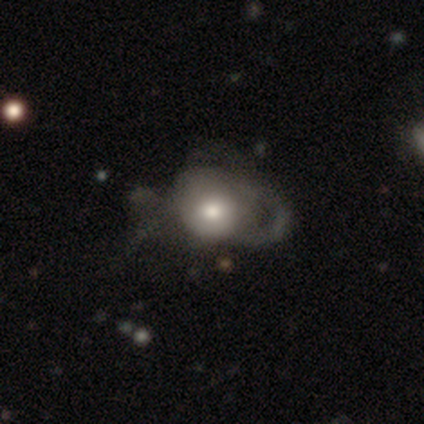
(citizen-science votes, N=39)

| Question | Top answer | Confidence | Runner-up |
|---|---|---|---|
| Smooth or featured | smooth | 56% | featured or disk (41%) |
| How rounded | round | 59% | in between (41%) |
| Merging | major disturbance | 53% | minor disturbance (8%) |